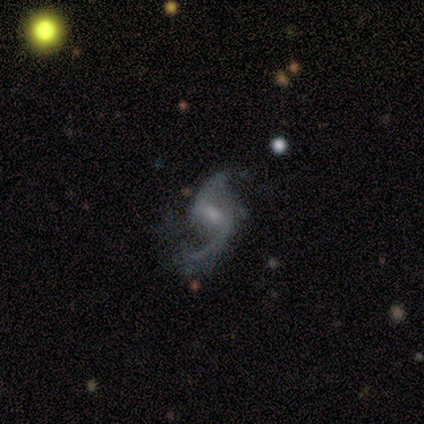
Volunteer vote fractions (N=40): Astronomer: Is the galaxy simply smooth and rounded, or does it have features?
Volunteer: featured or disk — 85%.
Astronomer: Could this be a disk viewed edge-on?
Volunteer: no — 100%.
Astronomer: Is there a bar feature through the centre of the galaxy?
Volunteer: weak — 68%.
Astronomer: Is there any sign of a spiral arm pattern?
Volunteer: yes — 97%.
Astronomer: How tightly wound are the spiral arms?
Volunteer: loose — 85%.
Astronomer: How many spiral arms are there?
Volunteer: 2 — 85%.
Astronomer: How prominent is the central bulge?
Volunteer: small — 74%.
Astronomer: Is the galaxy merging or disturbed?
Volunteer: none — 62%.